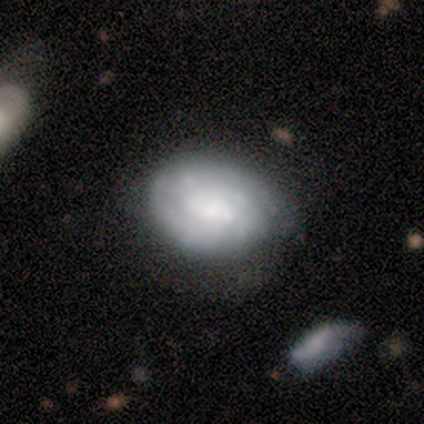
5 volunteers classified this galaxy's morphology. Smooth or featured? featured or disk (100%)
Edge-on disk? no (100%)
Bar? no (80%)
Spiral arms? yes (100%)
Spiral winding? tight (60%)
Spiral arm count? can't tell (100%)
Bulge size? dominant (40%, tied with large)
Merging? none (60%)